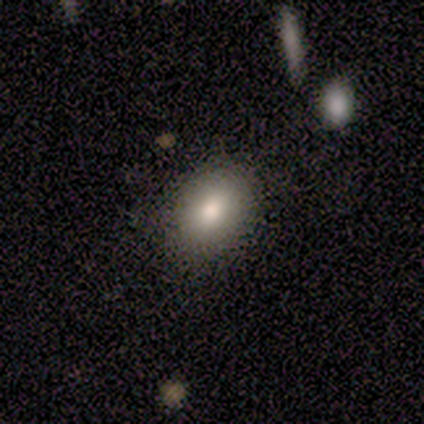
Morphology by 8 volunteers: This is clearly a smooth galaxy (100%). How rounded: possibly round (50%, tied with in between). Merging: clearly none (100%).